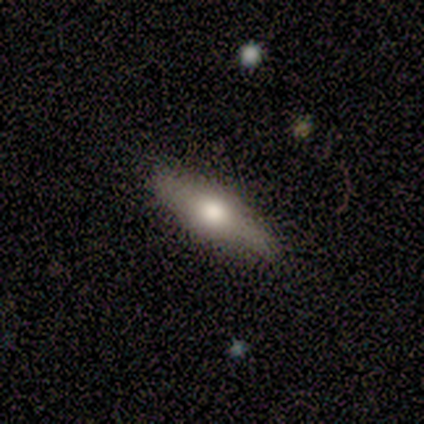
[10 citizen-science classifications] A smooth galaxy with no disk features (90%) that is cigar-shaped (67%).

Vote fractions:
- Smooth or featured? smooth: 90% / featured or disk: 10% / star or artifact: 0%
- How rounded? cigar-shaped: 67% / in between: 33% / round: 0%
- Merging? none: 70% / minor disturbance: 30% / major disturbance: 0% / merger: 0%